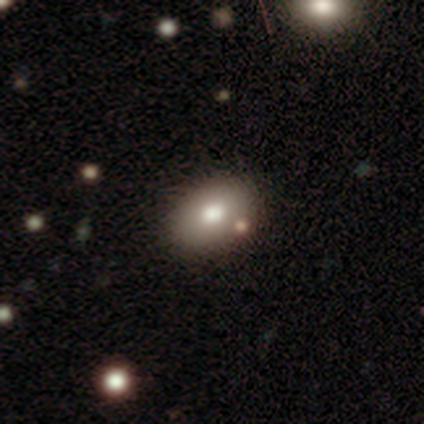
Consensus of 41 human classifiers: smooth_or_featured: smooth (p=0.78) [alt: featured or disk p=0.12]
how_rounded: in between (p=0.84) [alt: round p=0.16]
merging: none (p=0.84) [alt: minor disturbance p=0.11]